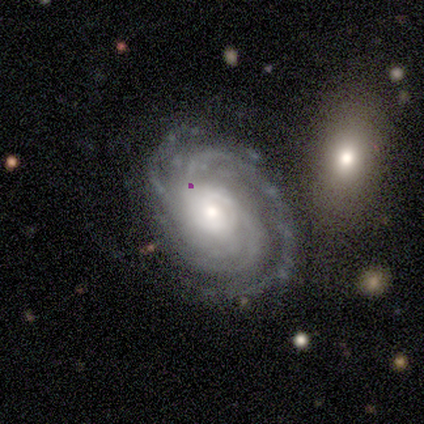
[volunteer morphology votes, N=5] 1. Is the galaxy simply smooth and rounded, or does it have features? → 100% featured or disk, 0% smooth, 0% star or artifact.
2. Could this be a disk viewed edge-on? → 100% no, 0% yes.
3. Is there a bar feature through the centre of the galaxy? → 40% weak (tied), 40% no (tied), 20% strong.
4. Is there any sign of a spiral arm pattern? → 100% yes, 0% no.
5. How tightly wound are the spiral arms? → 40% tight (tied), 40% medium (tied), 20% loose.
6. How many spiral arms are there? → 40% 2, 20% 4, 20% more than 4, 20% can't tell, 0% 1, 0% 3.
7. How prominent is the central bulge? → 60% small, 20% large, 20% moderate, 0% dominant, 0% none.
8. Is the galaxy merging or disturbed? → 80% none, 20% minor disturbance, 0% major disturbance, 0% merger.